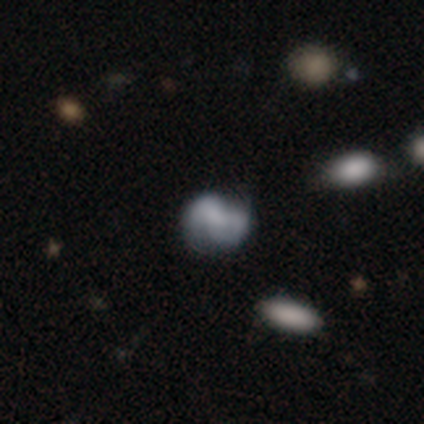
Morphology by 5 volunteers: smooth_or_featured: smooth (p=0.80) [alt: featured or disk p=0.20]
how_rounded: round (p=0.50) [tied with: in between p=0.50]
merging: none (p=0.60) [alt: minor disturbance p=0.20]